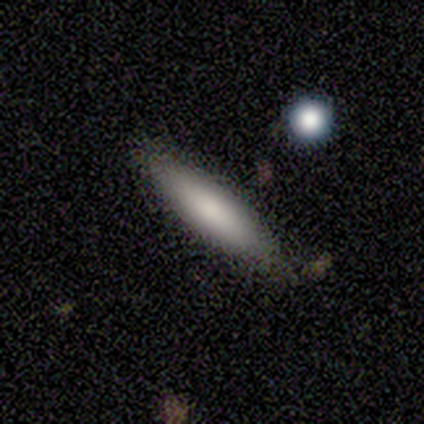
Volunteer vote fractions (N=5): Q: Smooth or featured?
A: smooth (100%)
Q: How rounded?
A: cigar-shaped (80%); runner-up: in between (20%)
Q: Merging?
A: none (80%); runner-up: minor disturbance (20%)